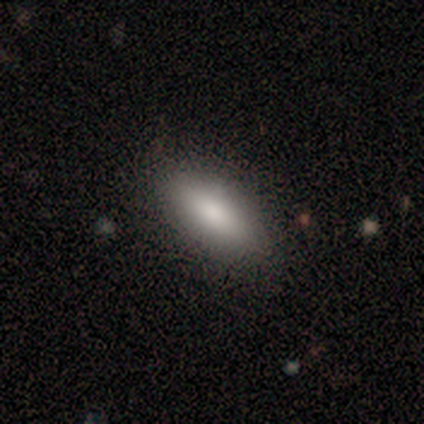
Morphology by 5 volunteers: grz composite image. It shows a smooth galaxy with no disk features (60%) that is in between round and cigar-shaped (100%). Merging: none (75%).